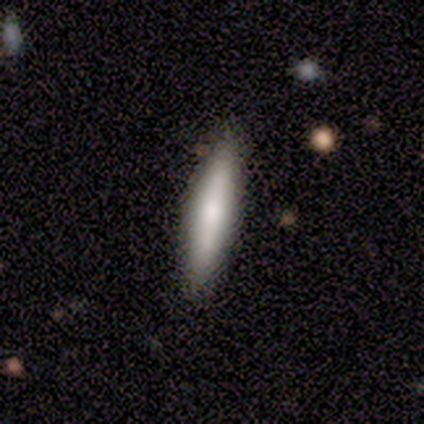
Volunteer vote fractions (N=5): smooth 100%, featured or disk 0%, star or artifact 0%. Down the decision tree: how rounded — cigar-shaped (80%); merging — none (100%).